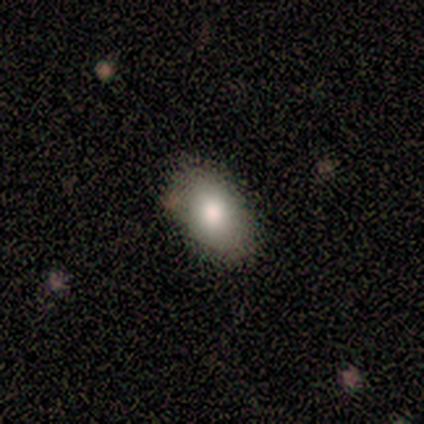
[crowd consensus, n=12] A smooth galaxy with no disk features (75%) that is in between round and cigar-shaped (89%).

Vote fractions:
- Smooth or featured? smooth: 75% / featured or disk: 17% / star or artifact: 8%
- How rounded? in between: 89% / round: 11% / cigar-shaped: 0%
- Merging? none: 82% / minor disturbance: 9% / major disturbance: 9% / merger: 0%